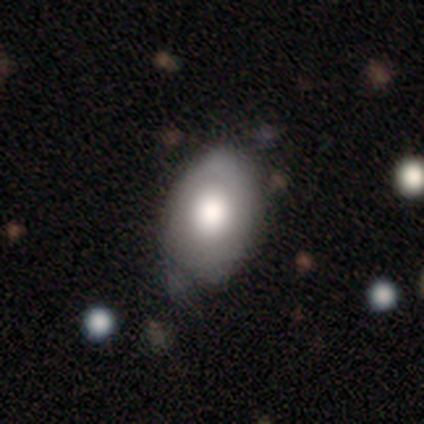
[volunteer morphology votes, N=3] type=smooth (67%); roundness=round (50%, tied with in between); merging=none (33%, tied with minor disturbance and major disturbance).